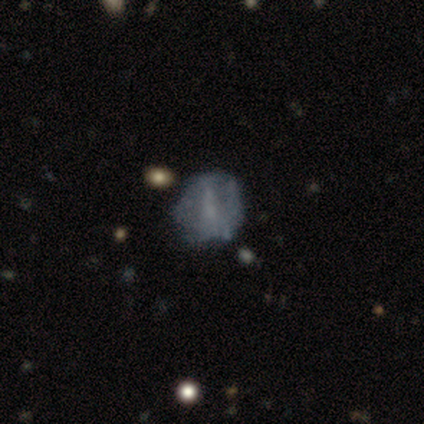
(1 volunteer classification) featured or disk 100%, smooth 0%, star or artifact 0%. Down the decision tree: edge-on disk — no (100%); bar — weak (100%); spiral arms — no (100%); bulge size — none (100%); merging — minor disturbance (100%).